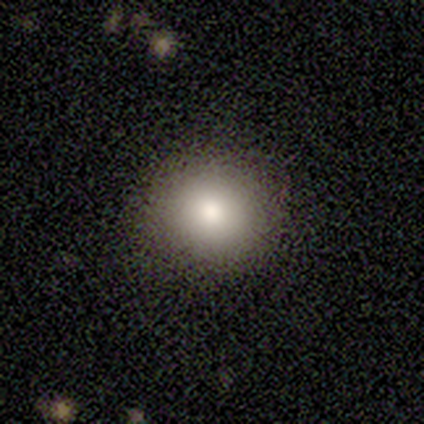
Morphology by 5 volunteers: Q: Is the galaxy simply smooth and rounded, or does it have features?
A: smooth — 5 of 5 (100%).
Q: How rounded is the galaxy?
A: round — 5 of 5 (100%).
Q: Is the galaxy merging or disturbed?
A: none — 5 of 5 (100%).